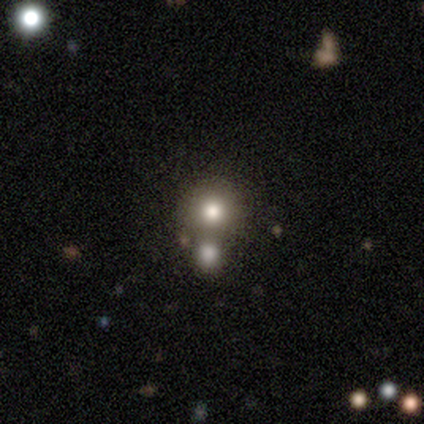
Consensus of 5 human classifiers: Q: Smooth or featured?
A: smooth (60%); runner-up: featured or disk (40%)
Q: How rounded?
A: round (67%); runner-up: in between (33%)
Q: Merging?
A: none (60%); runner-up: major disturbance (20%)